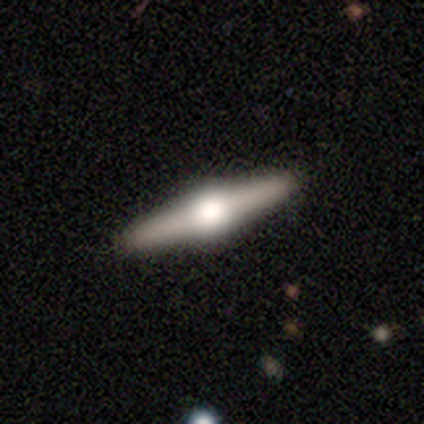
This is clearly a featured or disk galaxy (83%). It is clearly viewed edge-on (100%). Edge-on bulge: clearly rounded (100%). Merging: clearly none (100%).